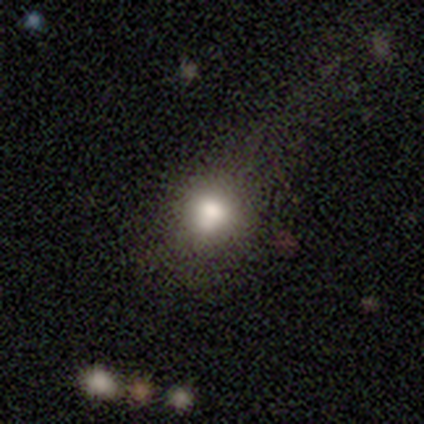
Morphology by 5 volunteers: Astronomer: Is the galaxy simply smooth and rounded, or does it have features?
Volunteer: smooth — 80%.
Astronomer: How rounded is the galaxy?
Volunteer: round — 75%.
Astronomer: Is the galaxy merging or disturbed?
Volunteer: none — 50%.